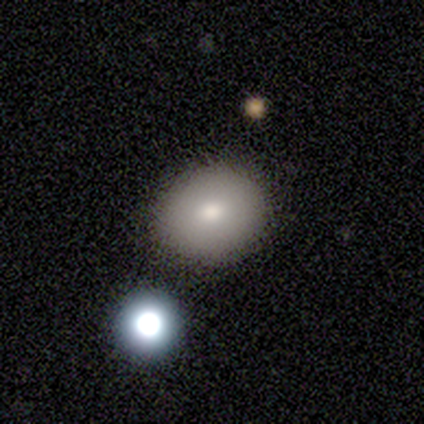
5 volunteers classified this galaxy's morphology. Smooth or featured?
  - smooth: 100% *
  - featured or disk: 0%
  - star or artifact: 0%
How rounded?
  - round: 100% *
  - in between: 0%
  - cigar-shaped: 0%
Merging?
  - none: 80% *
  - minor disturbance: 20%
  - major disturbance: 0%
  - merger: 0%